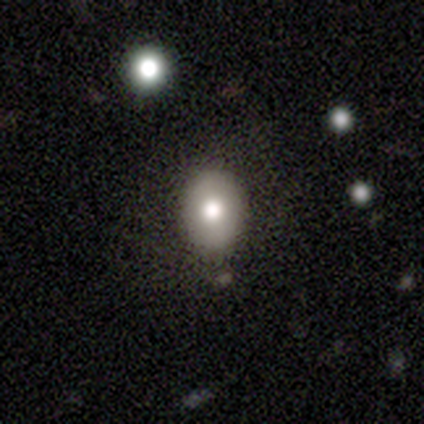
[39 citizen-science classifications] Overall: smooth (77%). How rounded: in between (73%). Merging: none (81%).